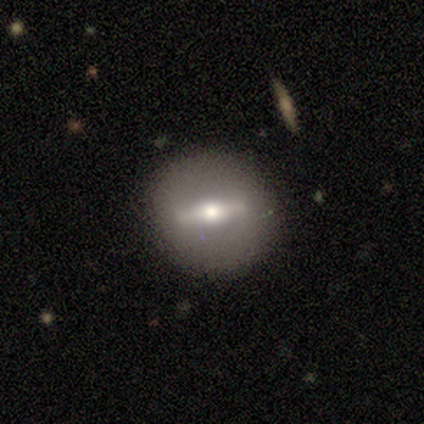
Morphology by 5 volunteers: A featured or disk galaxy (80%) with a strong bar (100%), no spiral arms (100%) and a moderate central bulge (67%).

Vote fractions:
- Smooth or featured? featured or disk: 80% / smooth: 20% / star or artifact: 0%
- Edge-on disk? no: 75% / yes: 25%
- Bar? strong: 100% / weak: 0% / no: 0%
- Spiral arms? no: 100% / yes: 0%
- Bulge size? moderate: 67% / small: 33% / dominant: 0% / large: 0% / none: 0%
- Merging? none: 80% / minor disturbance: 20% / major disturbance: 0% / merger: 0%